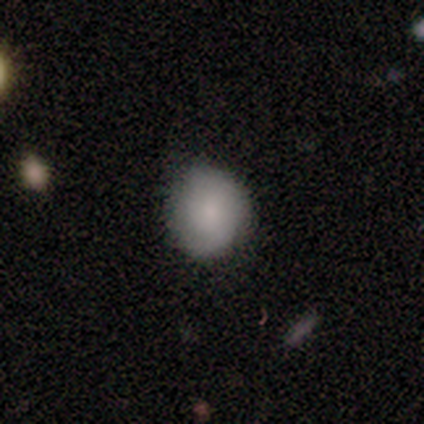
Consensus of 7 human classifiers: Morphology: type=smooth (71%); roundness=round (100%); merging=none (67%).